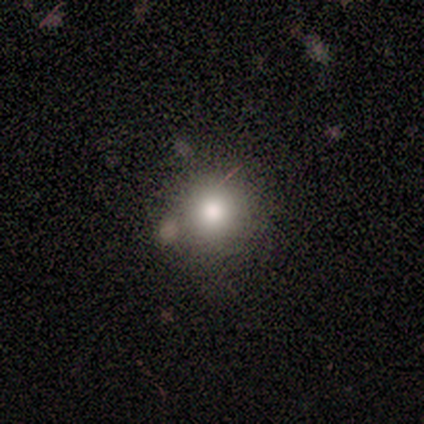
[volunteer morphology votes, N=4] smooth_or_featured: smooth (p=0.50) [tied with: star or artifact p=0.50]
how_rounded: round (p=0.50) [tied with: in between p=0.50]
merging: none (p=0.50) [tied with: minor disturbance p=0.50]